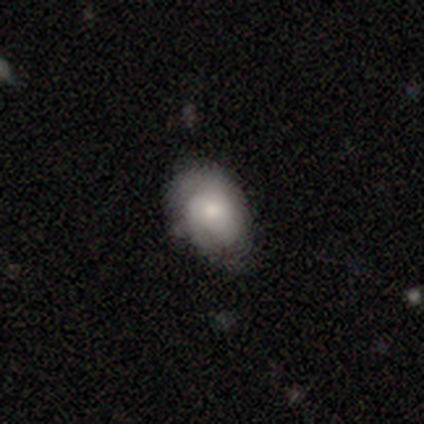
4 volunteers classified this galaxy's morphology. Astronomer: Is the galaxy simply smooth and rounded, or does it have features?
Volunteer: smooth — 50%, tied with featured or disk at 50%.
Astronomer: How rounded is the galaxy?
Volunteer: round — 50%, tied with cigar-shaped at 50%.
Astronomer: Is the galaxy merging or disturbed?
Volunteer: none — 50%.